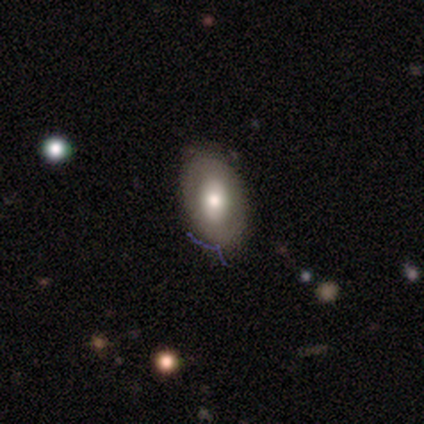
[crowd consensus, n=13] Smooth or featured? smooth (69%)
How rounded? in between (100%)
Merging? none (77%)